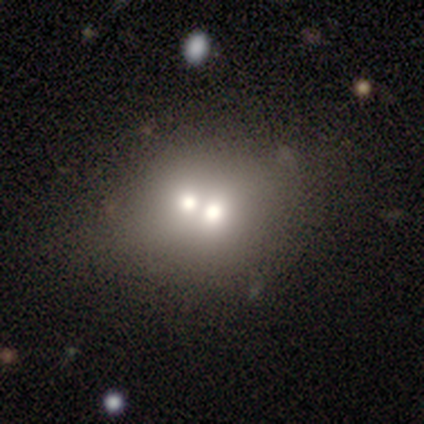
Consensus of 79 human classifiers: This is likely a smooth galaxy (65%). How rounded: likely round (71%). Merging: likely merger (78%).